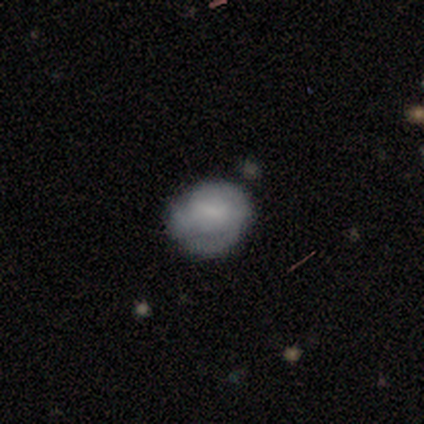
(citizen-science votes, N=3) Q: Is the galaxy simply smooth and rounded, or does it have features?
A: featured or disk — 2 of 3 (67%).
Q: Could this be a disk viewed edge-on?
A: no — 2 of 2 (100%).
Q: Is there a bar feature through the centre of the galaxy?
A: no — 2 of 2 (100%).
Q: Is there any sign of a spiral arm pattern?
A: no — 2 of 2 (100%).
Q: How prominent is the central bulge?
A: moderate — 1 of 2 (50%, tied with none).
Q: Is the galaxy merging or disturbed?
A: none — 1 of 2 (50%, tied with minor disturbance).